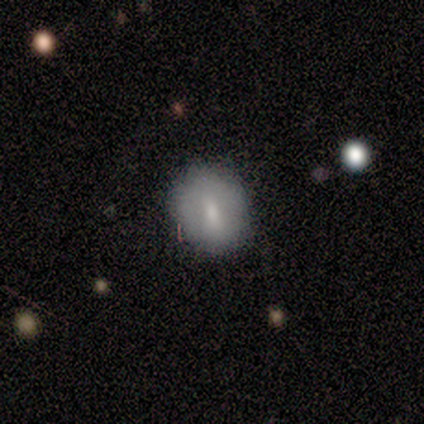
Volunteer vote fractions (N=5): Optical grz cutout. It shows a featured or disk galaxy (60%) with a weak bar (67%), no spiral arms (100%) and a moderate central bulge (67%). Merging: none (100%).